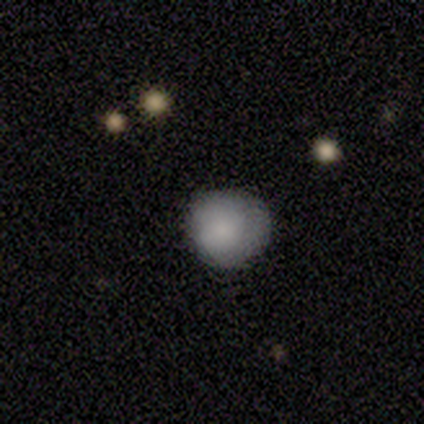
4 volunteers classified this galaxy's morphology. A smooth galaxy with no disk features (75%) that is round (100%).

Vote fractions:
- Smooth or featured? smooth: 75% / star or artifact: 25% / featured or disk: 0%
- How rounded? round: 100% / in between: 0% / cigar-shaped: 0%
- Merging? none: 100% / minor disturbance: 0% / major disturbance: 0% / merger: 0%